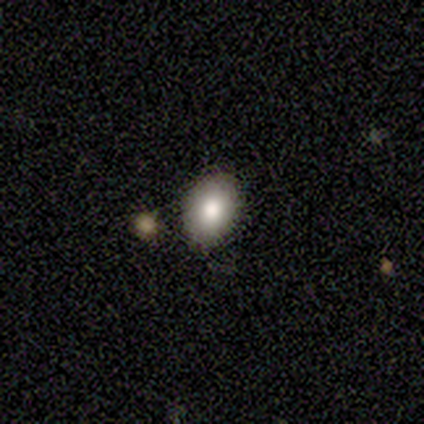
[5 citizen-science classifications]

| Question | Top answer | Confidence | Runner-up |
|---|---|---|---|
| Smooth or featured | smooth | 100% | — |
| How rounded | in between | 60% | round (40%) |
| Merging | none | 60% | minor disturbance (40%) |